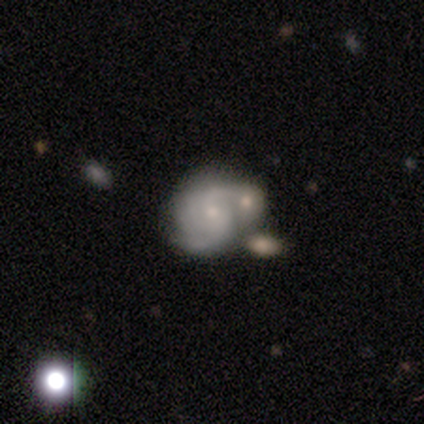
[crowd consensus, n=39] Smooth or featured: featured or disk — 82% (smooth — 18%)
Edge-on disk: no — 97% (yes — 3%)
Bar: no — 65% (weak — 32%)
Spiral arms: yes — 97% (no — 3%)
Spiral winding: tight — 40% (tied with medium — 40%)
Spiral arm count: 2 — 57% (3 — 23%)
Bulge size: small — 81% (moderate — 16%)
Merging: merger — 36% (none — 28%)